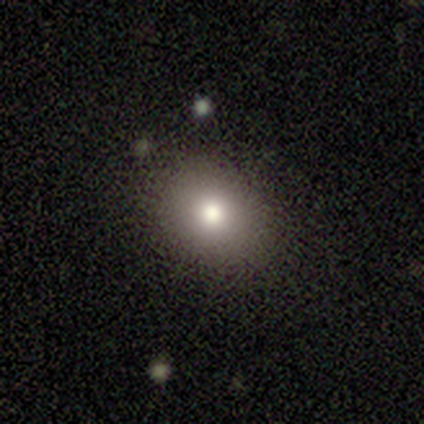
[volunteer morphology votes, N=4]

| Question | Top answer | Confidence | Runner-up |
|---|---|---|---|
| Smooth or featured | smooth | 100% | — |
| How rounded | round | 75% | in between (25%) |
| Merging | none | 100% | — |